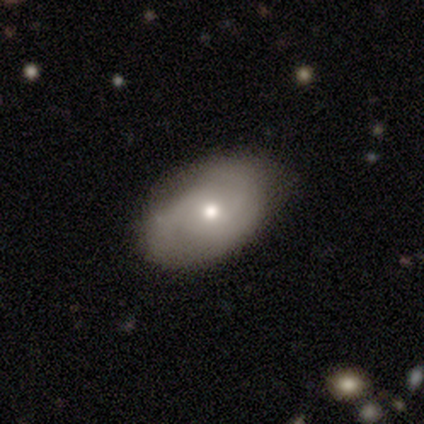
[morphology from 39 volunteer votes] Smooth or featured: smooth — 51% (featured or disk — 49%)
How rounded: in between — 90% (round — 5%)
Merging: none — 74% (minor disturbance — 18%)